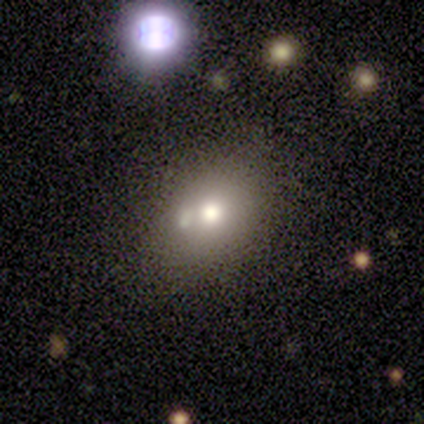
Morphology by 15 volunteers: type=smooth (60%); roundness=in between (56%); merging=none (92%).